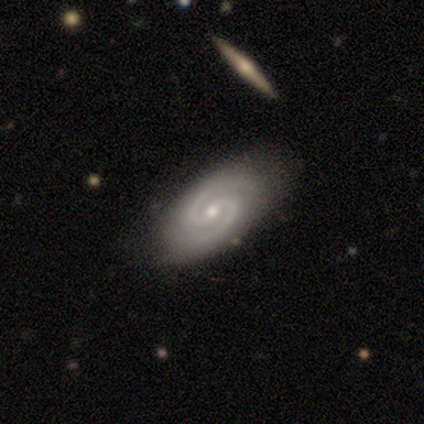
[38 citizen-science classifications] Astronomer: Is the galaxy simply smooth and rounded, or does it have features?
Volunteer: featured or disk — 89%.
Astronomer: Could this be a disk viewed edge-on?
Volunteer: no — 97%.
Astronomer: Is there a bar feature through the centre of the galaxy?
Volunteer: no — 45% (runner-up: weak, 36%).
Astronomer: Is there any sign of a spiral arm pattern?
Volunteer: yes — 100%.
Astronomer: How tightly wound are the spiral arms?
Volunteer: medium — 70%.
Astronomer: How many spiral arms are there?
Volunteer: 2 — 91%.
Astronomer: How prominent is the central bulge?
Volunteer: small — 52% (runner-up: moderate, 42%).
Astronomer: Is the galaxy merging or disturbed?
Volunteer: none — 89%.